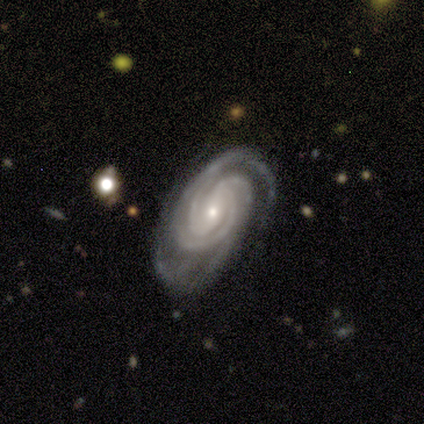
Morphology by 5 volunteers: This is clearly a featured or disk galaxy (100%). It is clearly not viewed edge-on (100%). Bar: marginally weak (40%, tied with no). Spiral arm pattern: clearly yes (100%). Spiral arm count: marginally 2 (20%, tied with 3, 4, more than 4 and can't tell). Spiral winding: clearly tight (80%). Central bulge: clearly small (100%). Merging: clearly none (100%).